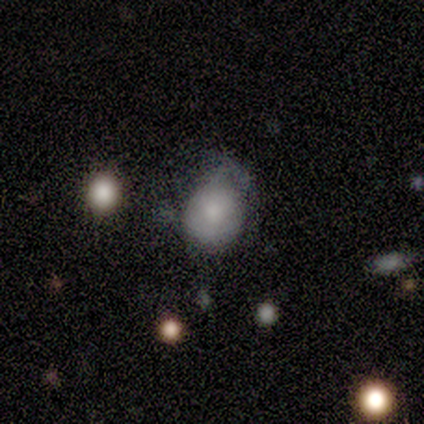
Overall: smooth (100%). How rounded: round (80%). Merging: minor disturbance (80%).